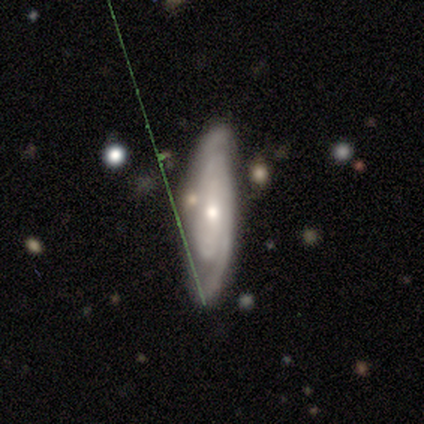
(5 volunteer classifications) A featured or disk galaxy (80%) with no bar (100%), 2 (67%) tight (67%) spiral arms (100%) and a moderate central bulge (67%).

Vote fractions:
- Smooth or featured? featured or disk: 80% / smooth: 20% / star or artifact: 0%
- Edge-on disk? no: 75% / yes: 25%
- Bar? no: 100% / strong: 0% / weak: 0%
- Spiral arms? yes: 100% / no: 0%
- Spiral winding? tight: 67% / medium: 33% / loose: 0%
- Spiral arm count? 2: 67% / can't tell: 33% / 1: 0% / 3: 0% / 4: 0% / more than 4: 0%
- Bulge size? moderate: 67% / small: 33% / dominant: 0% / large: 0% / none: 0%
- Merging? none: 100% / minor disturbance: 0% / major disturbance: 0% / merger: 0%